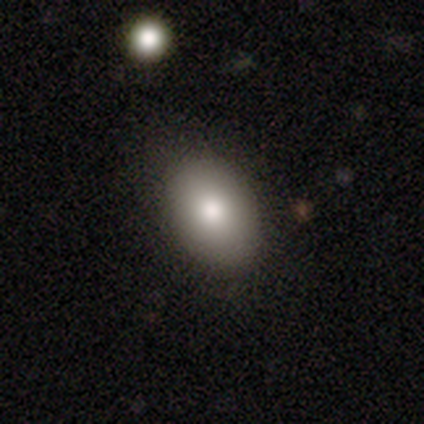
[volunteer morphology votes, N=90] Smooth or featured? 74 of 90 (82%) said smooth. How rounded? 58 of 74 (78%) said in between. Merging? 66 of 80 (82%) said none.